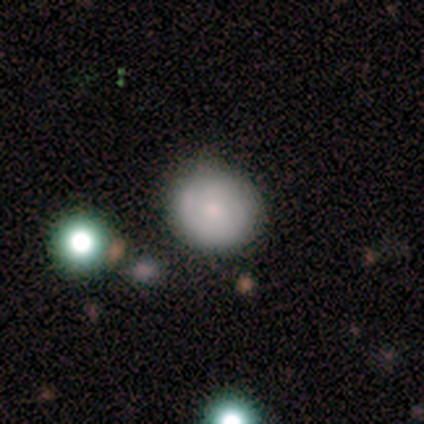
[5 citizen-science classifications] A smooth galaxy with no disk features (80%) that is round (75%). Merging: none (60%).